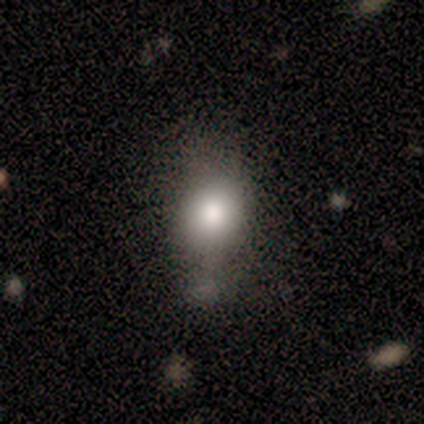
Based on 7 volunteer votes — A smooth galaxy with no disk features (57%) that is round (50%, tied with in between).

Vote fractions:
- Smooth or featured? smooth: 57% / featured or disk: 43% / star or artifact: 0%
- How rounded? round: 50% (tied) / in between: 50% (tied) / cigar-shaped: 0%
- Merging? minor disturbance: 43% / none: 29% / merger: 29% / major disturbance: 0%